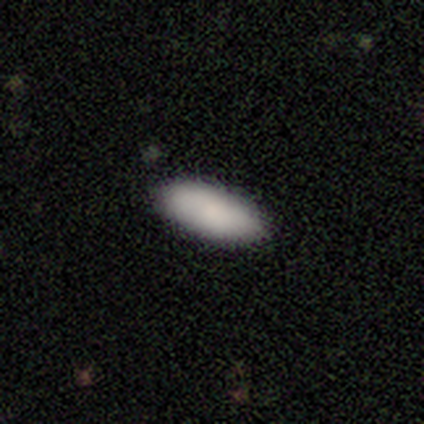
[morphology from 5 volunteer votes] A smooth galaxy with no disk features (80%) that is in between round and cigar-shaped (75%).

Vote fractions:
- Smooth or featured? smooth: 80% / featured or disk: 20% / star or artifact: 0%
- How rounded? in between: 75% / cigar-shaped: 25% / round: 0%
- Merging? none: 100% / minor disturbance: 0% / major disturbance: 0% / merger: 0%